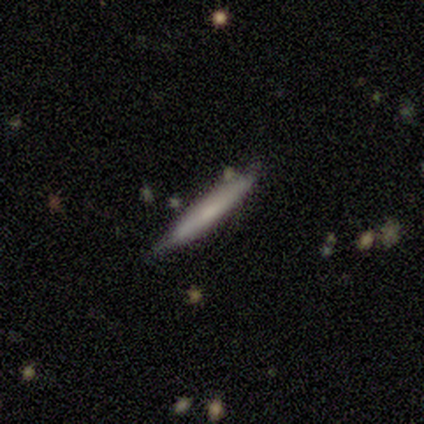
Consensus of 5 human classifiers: smooth_or_featured: smooth (p=0.60) [alt: featured or disk p=0.40]
how_rounded: cigar-shaped (p=1.00)
merging: minor disturbance (p=0.60) [alt: none p=0.40]